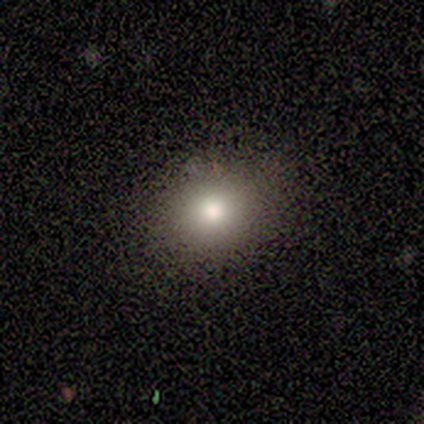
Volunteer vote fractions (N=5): Smooth or featured?
  - smooth: 100% *
  - featured or disk: 0%
  - star or artifact: 0%
How rounded?
  - in between: 60% *
  - round: 40%
  - cigar-shaped: 0%
Merging?
  - none: 60% *
  - minor disturbance: 40%
  - major disturbance: 0%
  - merger: 0%